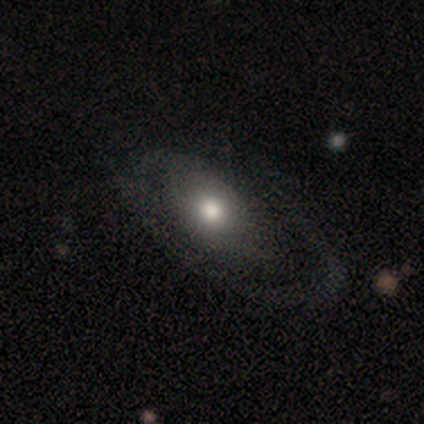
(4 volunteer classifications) Smooth or featured? 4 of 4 (100%) said featured or disk. Edge-on disk? 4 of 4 (100%) said no. Bar? 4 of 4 (100%) said no. Spiral arms? 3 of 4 (75%) said yes. Spiral winding? 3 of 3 (100%) said medium. Spiral arm count? 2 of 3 (67%) said 1. Bulge size? 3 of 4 (75%) said moderate. Merging? 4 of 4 (100%) said none.